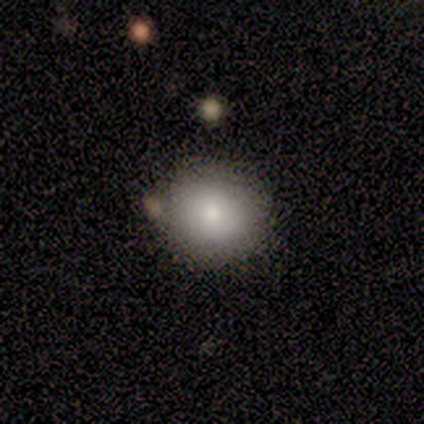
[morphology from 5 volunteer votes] This appears to be a smooth galaxy with no disk features (80%) that is round (75%). Merging: none (100%).